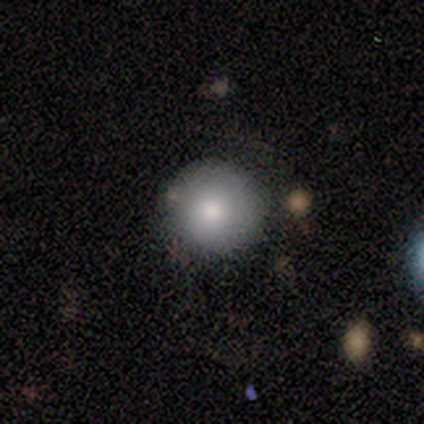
Smooth or featured? smooth (80%)
How rounded? round (100%)
Merging? none (100%)